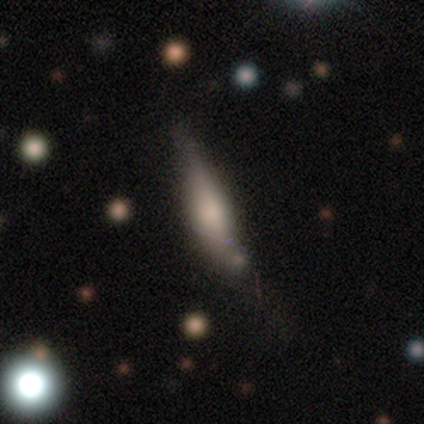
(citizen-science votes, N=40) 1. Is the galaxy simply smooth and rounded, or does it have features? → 52% smooth, 40% featured or disk, 8% star or artifact.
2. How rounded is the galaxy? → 67% cigar-shaped, 29% in between, 5% round.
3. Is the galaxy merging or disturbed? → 41% minor disturbance, 32% none, 19% major disturbance, 8% merger.